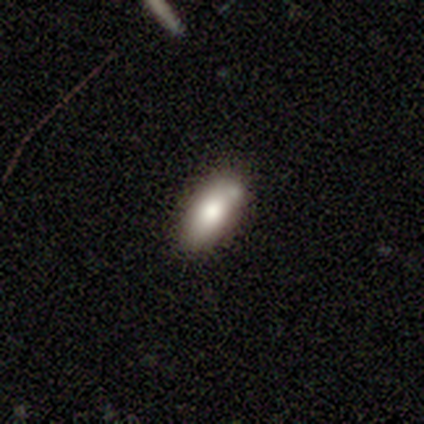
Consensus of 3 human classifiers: smooth-or-featured: smooth: 67% | featured or disk: 33% | star or artifact: 0%
  how-rounded: in between: 100% | round: 0% | cigar-shaped: 0%
  merging: none: 67% | minor disturbance: 33% | major disturbance: 0% | merger: 0%